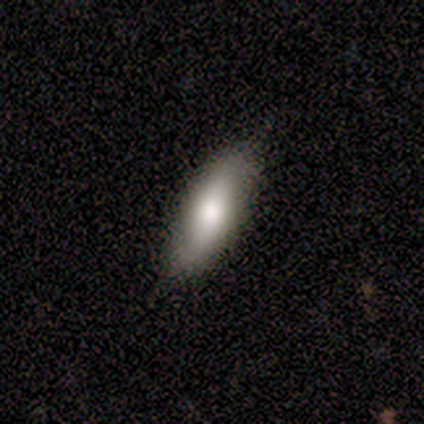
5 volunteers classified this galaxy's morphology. type=smooth (80%); roundness=cigar-shaped (75%); merging=none (80%).